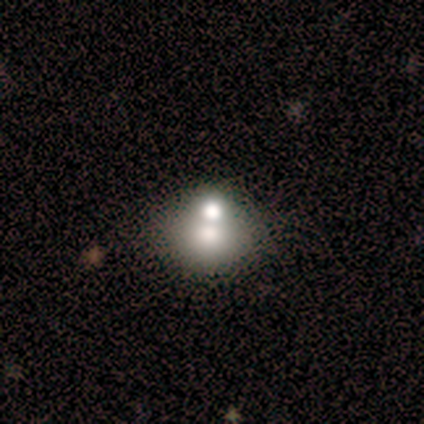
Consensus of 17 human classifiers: Q: Smooth or featured?
A: smooth (76%); runner-up: featured or disk (18%)
Q: How rounded?
A: in between (54%); runner-up: round (46%)
Q: Merging?
A: merger (50%); runner-up: none (38%)